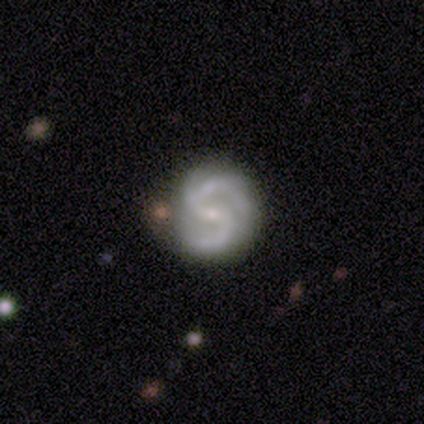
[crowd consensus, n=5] Overall: featured or disk (100%). Edge-on disk: no (100%). Bar: weak (60%; strong 40%). Spiral arms: yes (100%). Spiral arm count: 2 (60%; 3 40%). Spiral winding: medium (80%). Bulge size: small (80%). Merging: none (80%).